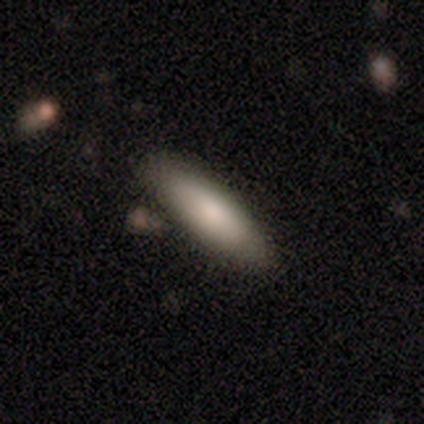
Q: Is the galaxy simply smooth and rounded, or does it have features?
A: smooth — 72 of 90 (80%).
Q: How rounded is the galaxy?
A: cigar-shaped — 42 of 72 (58%).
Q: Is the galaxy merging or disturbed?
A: none — 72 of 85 (85%).